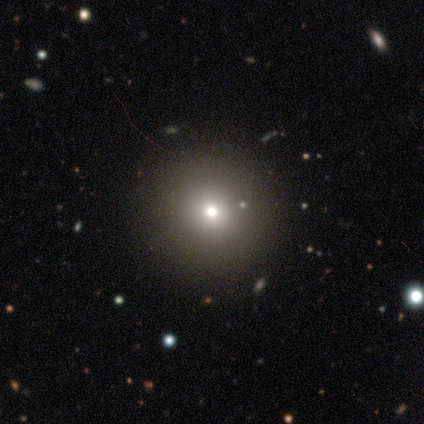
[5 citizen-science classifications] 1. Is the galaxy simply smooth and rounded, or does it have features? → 40% smooth (tied), 40% star or artifact (tied), 20% featured or disk.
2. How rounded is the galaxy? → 100% round, 0% in between, 0% cigar-shaped.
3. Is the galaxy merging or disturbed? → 100% none, 0% minor disturbance, 0% major disturbance, 0% merger.